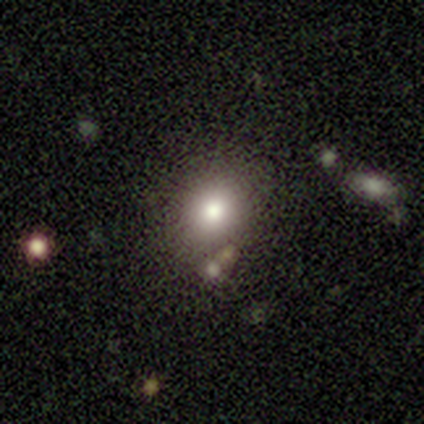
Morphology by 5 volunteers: Volunteers were most divided on "smooth or featured": smooth: 60%, star or artifact: 40%, featured or disk: 0%. More confident: how rounded — round (67%); merging — none (67%).